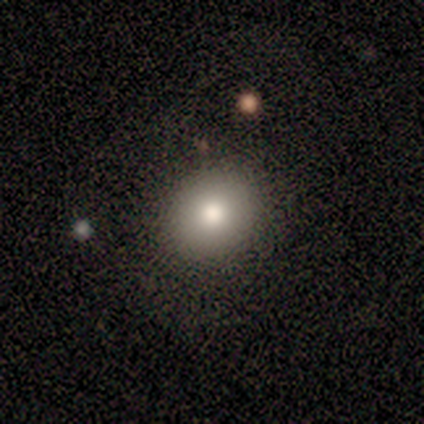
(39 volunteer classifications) Q: Smooth or featured?
A: smooth (62%); runner-up: featured or disk (26%)
Q: How rounded?
A: round (83%); runner-up: in between (17%)
Q: Merging?
A: none (85%); runner-up: minor disturbance (12%)